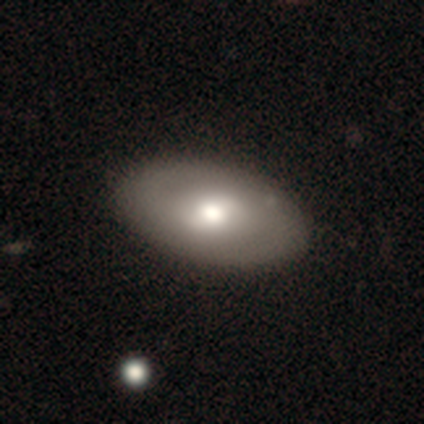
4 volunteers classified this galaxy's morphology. smooth-or-featured: smooth: 50% (tied) | featured or disk: 50% (tied) | star or artifact: 0%
  how-rounded: round: 50% (tied) | in between: 50% (tied) | cigar-shaped: 0%
  merging: none: 100% | minor disturbance: 0% | major disturbance: 0% | merger: 0%